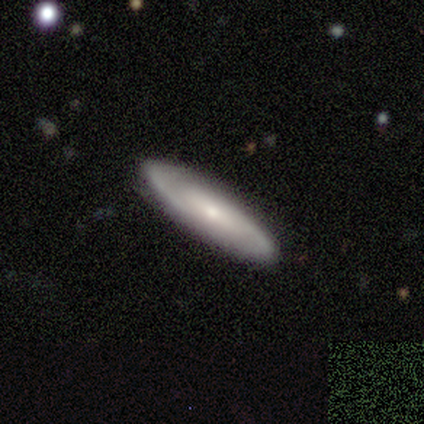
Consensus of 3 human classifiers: This is likely a featured or disk galaxy (67%). It is clearly not viewed edge-on (100%). Bar: clearly no (100%). Spiral arm pattern: possibly yes (50%, tied with no). Spiral arm count: clearly 2 (100%). Spiral winding: clearly tight (100%). Central bulge: possibly moderate (50%, tied with small). Merging: clearly none (100%).